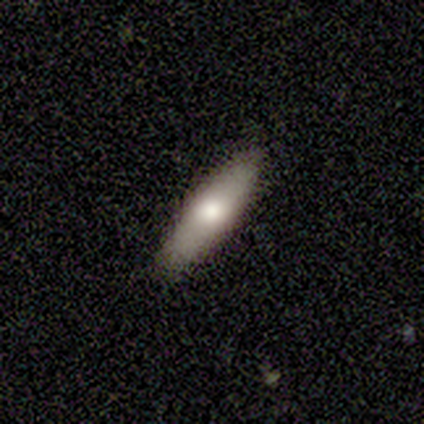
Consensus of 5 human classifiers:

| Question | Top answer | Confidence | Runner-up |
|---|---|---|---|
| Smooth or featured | smooth | 60% | featured or disk (40%) |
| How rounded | cigar-shaped | 100% | — |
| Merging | none | 100% | — |